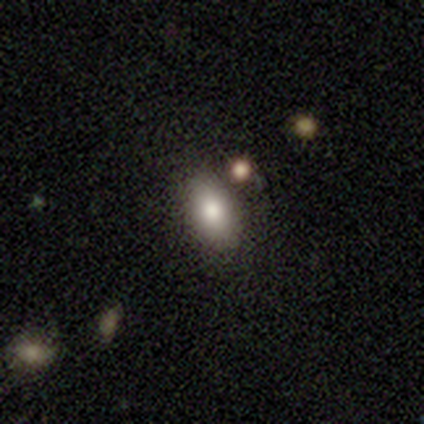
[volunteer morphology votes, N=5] Overall: smooth (100%). How rounded: in between (60%; round 40%). Merging: none (60%; minor disturbance 20%).